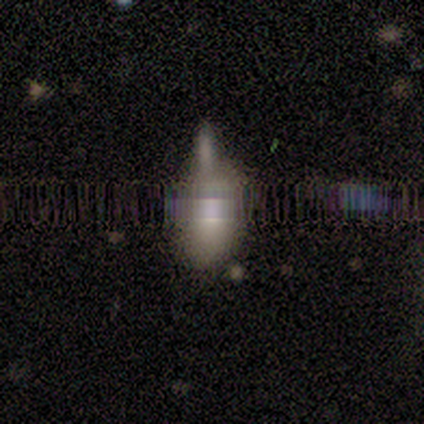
Q: Smooth or featured?
A: smooth (50%); runner-up: star or artifact (38%)
Q: How rounded?
A: in between (75%); runner-up: cigar-shaped (25%)
Q: Merging?
A: none (40%); tied with: minor disturbance (40%)